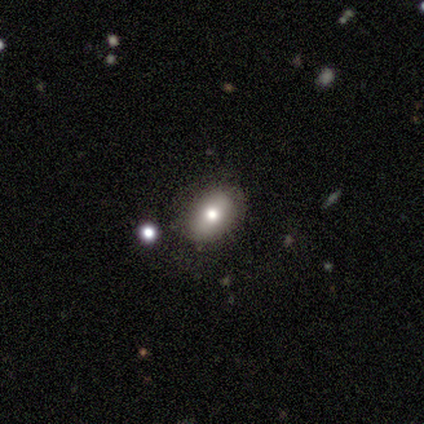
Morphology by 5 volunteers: A smooth galaxy with no disk features (40%, tied with star or artifact) that is in between round and cigar-shaped (100%).

Vote fractions:
- Smooth or featured? smooth: 40% (tied) / star or artifact: 40% (tied) / featured or disk: 20%
- How rounded? in between: 100% / round: 0% / cigar-shaped: 0%
- Merging? none: 100% / minor disturbance: 0% / major disturbance: 0% / merger: 0%